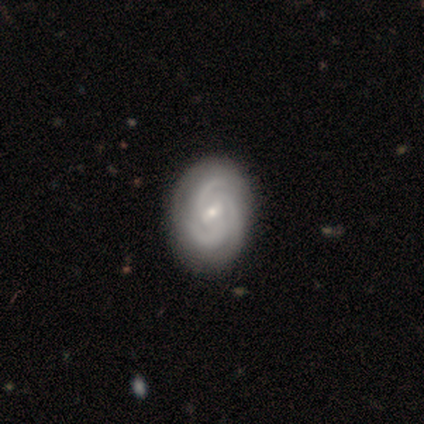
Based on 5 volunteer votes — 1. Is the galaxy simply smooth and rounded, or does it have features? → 100% featured or disk, 0% smooth, 0% star or artifact.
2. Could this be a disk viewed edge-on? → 100% no, 0% yes.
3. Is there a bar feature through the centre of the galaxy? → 60% weak, 40% no, 0% strong.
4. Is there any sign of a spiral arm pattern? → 100% yes, 0% no.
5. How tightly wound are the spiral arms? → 80% tight, 20% medium, 0% loose.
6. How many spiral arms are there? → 80% 3, 20% can't tell, 0% 1, 0% 2, 0% 4, 0% more than 4.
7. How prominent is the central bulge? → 80% small, 20% moderate, 0% dominant, 0% large, 0% none.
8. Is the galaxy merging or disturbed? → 60% none, 40% minor disturbance, 0% major disturbance, 0% merger.